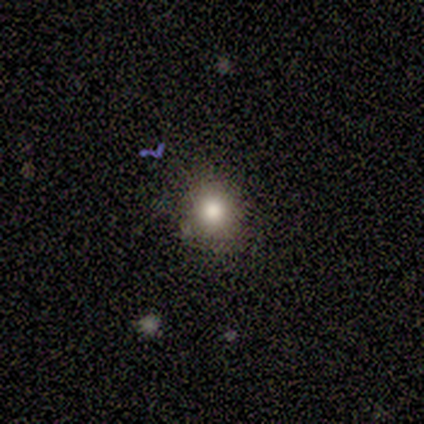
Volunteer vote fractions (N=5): Overall: star or artifact (60%; smooth 40%).